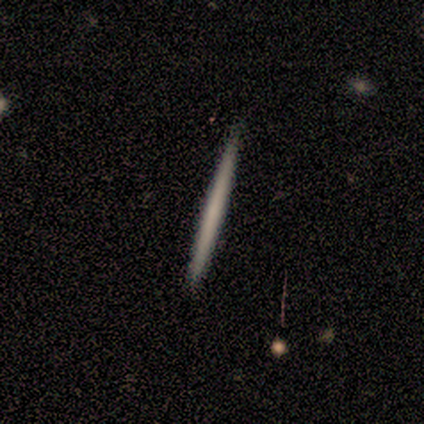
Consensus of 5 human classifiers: A featured or disk galaxy (60%) viewed edge-on (100%) with no central bulge (100%). Merging: none (80%).